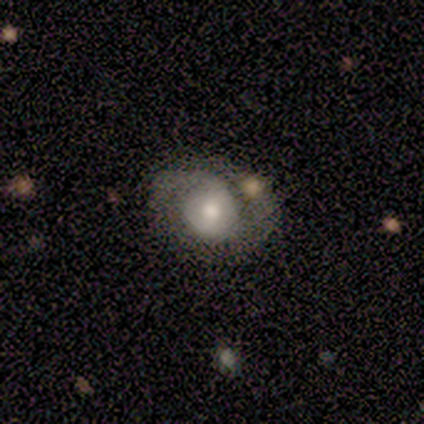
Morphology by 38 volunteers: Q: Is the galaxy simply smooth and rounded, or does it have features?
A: featured or disk — 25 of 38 (66%).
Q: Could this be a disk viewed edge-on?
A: no — 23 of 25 (92%).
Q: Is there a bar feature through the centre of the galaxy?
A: no — 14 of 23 (61%).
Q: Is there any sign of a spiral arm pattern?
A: yes — 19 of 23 (83%).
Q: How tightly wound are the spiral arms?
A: tight — 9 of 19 (47%).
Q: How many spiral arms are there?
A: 2 — 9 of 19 (47%).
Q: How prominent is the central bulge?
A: moderate — 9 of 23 (39%, tied with small).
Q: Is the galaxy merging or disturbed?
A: none — 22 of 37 (59%).